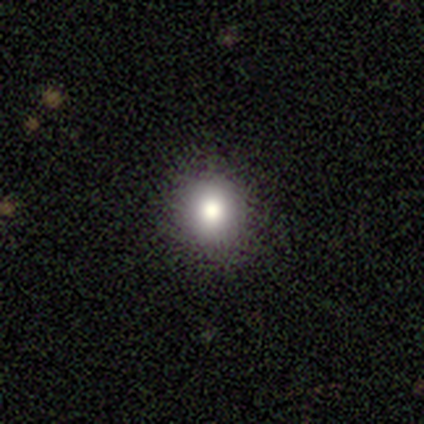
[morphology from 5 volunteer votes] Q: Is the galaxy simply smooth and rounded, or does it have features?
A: smooth — 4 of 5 (80%).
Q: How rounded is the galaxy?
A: round — 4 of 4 (100%).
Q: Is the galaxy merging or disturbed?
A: none — 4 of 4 (100%).